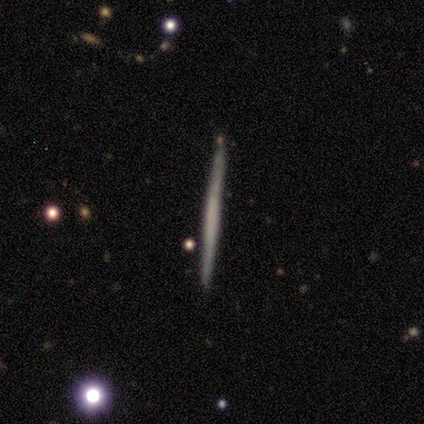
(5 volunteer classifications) This appears to be a smooth galaxy with no disk features (60%) that is cigar-shaped (100%). Merging: none (100%).